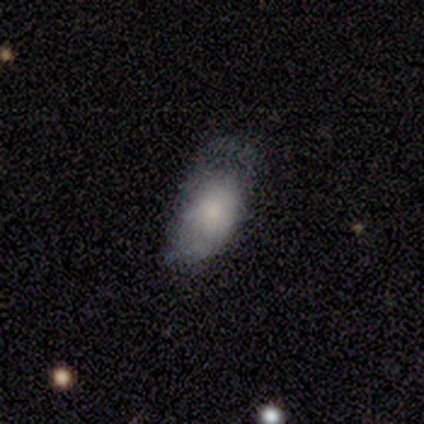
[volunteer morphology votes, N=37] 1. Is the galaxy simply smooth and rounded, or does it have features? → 70% smooth, 22% featured or disk, 8% star or artifact.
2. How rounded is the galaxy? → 100% in between, 0% round, 0% cigar-shaped.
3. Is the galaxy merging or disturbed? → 38% none, 32% minor disturbance, 29% major disturbance, 0% merger.